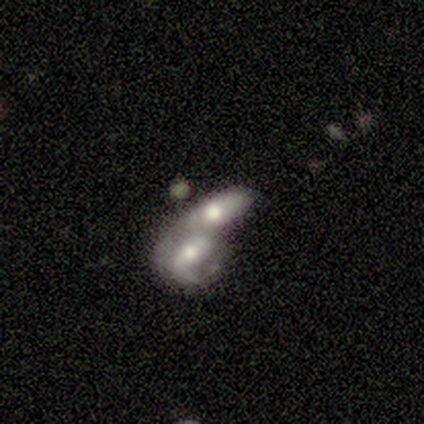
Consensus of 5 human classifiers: Smooth or featured: smooth — 60% (featured or disk — 40%)
How rounded: in between — 100%
Merging: merger — 80% (major disturbance — 20%)